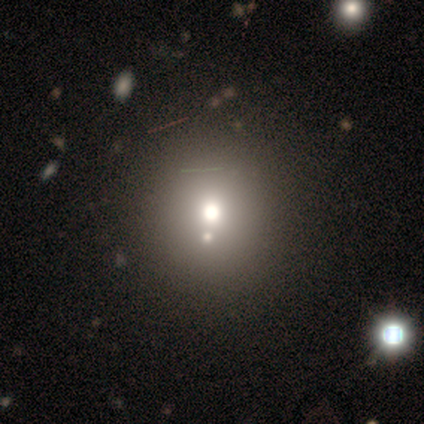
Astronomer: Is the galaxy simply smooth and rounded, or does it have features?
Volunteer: smooth — 69%.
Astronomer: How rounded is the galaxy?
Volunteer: round — 86%.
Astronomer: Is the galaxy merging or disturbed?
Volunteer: none — 39% (runner-up: merger, 30%).